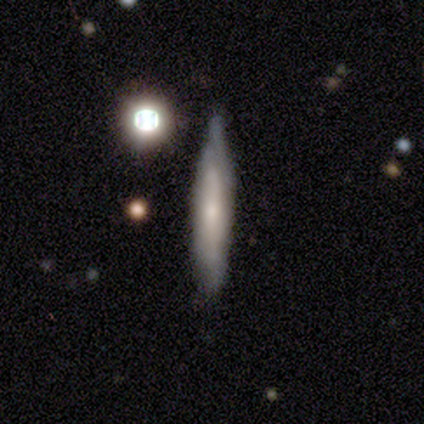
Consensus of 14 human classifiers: Morphology: type=featured or disk (71%); edge-on=yes (70%); edge-on bulge=none (86%); merging=none (79%).